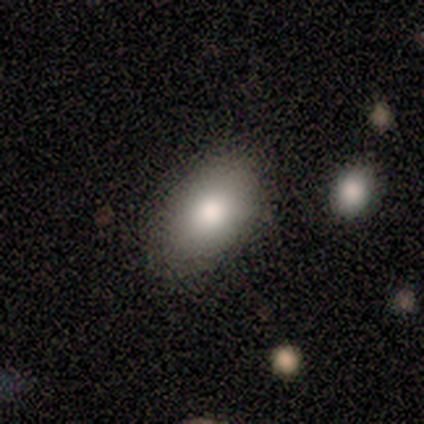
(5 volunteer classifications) A smooth galaxy with no disk features (80%) that is in between round and cigar-shaped (75%). Merging: none (100%).